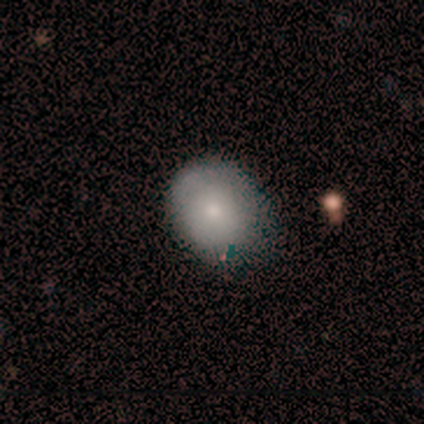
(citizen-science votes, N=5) Smooth or featured? smooth (40%, tied with featured or disk)
How rounded? round (100%)
Merging? minor disturbance (75%)